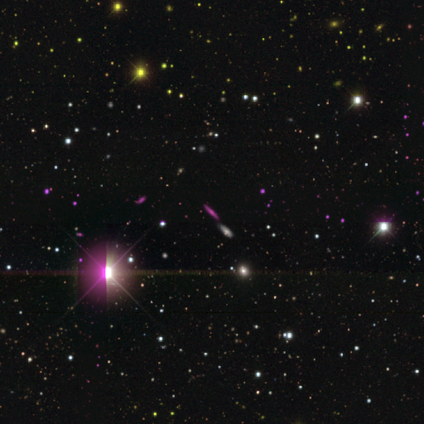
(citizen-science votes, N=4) star or artifact 75%, smooth 25%, featured or disk 0%.